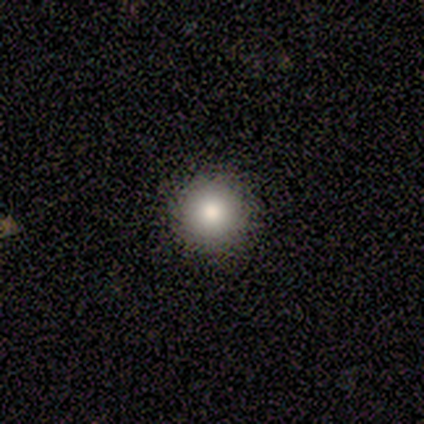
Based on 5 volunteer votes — Smooth or featured? smooth (60%)
How rounded? round (100%)
Merging? none (100%)